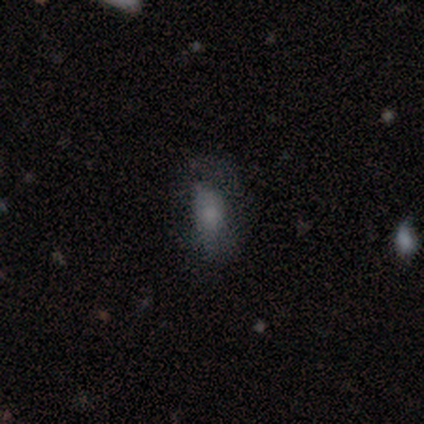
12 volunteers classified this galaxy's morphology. type=smooth (83%); roundness=in between (70%); merging=major disturbance (42%).